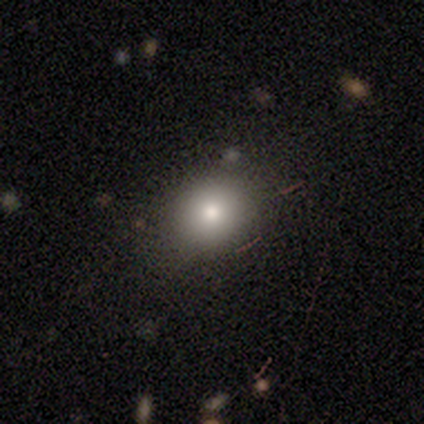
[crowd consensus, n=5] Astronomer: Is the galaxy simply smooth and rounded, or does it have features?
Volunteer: smooth — 60% (runner-up: star or artifact, 40%).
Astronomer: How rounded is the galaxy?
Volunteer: round — 100%.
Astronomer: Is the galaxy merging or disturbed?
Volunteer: none — 100%.